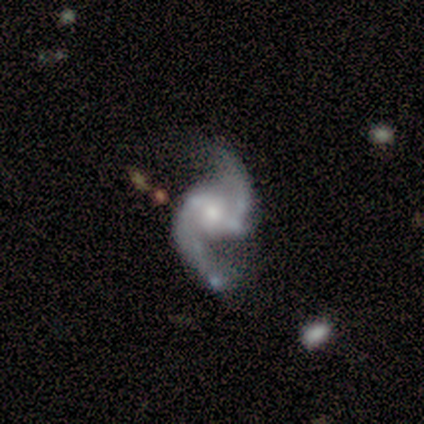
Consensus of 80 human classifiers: featured or disk 95%, smooth 2%, star or artifact 2%. Down the decision tree: edge-on disk — no (99%); bar — weak (37%); spiral arms — yes (97%); spiral arm count — 2 (99%); spiral winding — loose (67%); bulge size — moderate (53%); merging — none (32%).